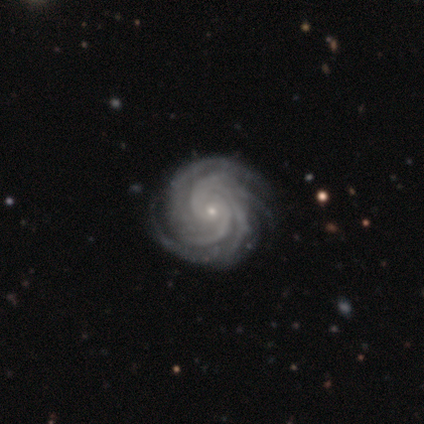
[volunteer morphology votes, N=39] Smooth or featured?
  - featured or disk: 97% *
  - star or artifact: 3%
  - smooth: 0%
Edge-on disk?
  - no: 100% *
  - yes: 0%
Bar?
  - no: 76% *
  - weak: 21%
  - strong: 3%
Spiral arms?
  - yes: 100% *
  - no: 0%
Spiral winding?
  - tight: 82% *
  - medium: 18%
  - loose: 0%
Spiral arm count?
  - 4: 32% * (tied)
  - more than 4: 32% * (tied)
  - 2: 18%
  - 3: 13%
  - can't tell: 5%
  - 1: 0%
Bulge size?
  - small: 89% *
  - moderate: 8%
  - none: 3%
  - dominant: 0%
  - large: 0%
Merging?
  - none: 66% *
  - minor disturbance: 5%
  - major disturbance: 0%
  - merger: 0%